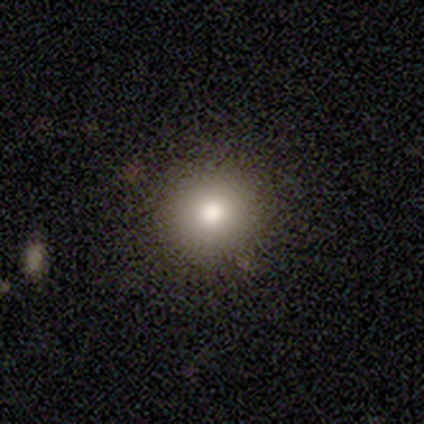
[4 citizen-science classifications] Smooth or featured? 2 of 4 (50%) said smooth. How rounded? 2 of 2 (100%) said round. Merging? 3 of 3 (100%) said none.